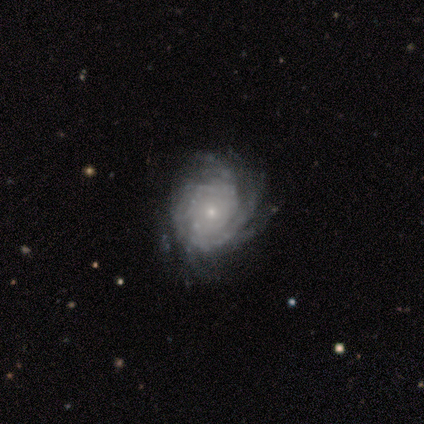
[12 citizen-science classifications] featured or disk 75%, smooth 17%, star or artifact 8%. Down the decision tree: edge-on disk — no (100%); bar — no (89%); spiral arms — yes (100%); spiral arm count — can't tell (44%); spiral winding — tight (78%); bulge size — small (78%); merging — none (55%).